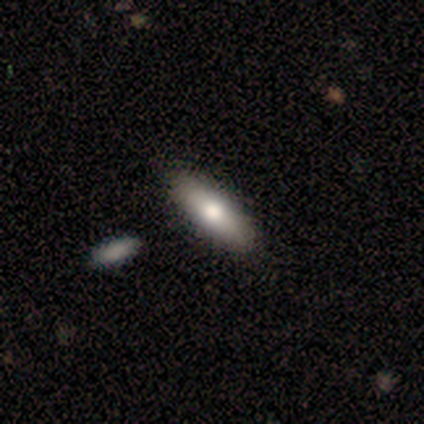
Overall: smooth (72%). How rounded: in between (64%; cigar-shaped 36%). Merging: none (63%).